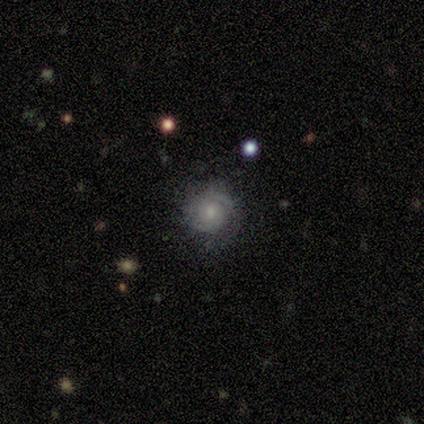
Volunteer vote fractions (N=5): Smooth or featured? featured or disk (60%)
Edge-on disk? no (100%)
Bar? no (67%)
Spiral arms? yes (100%)
Spiral winding? tight (100%)
Spiral arm count? 2 (67%)
Bulge size? moderate (67%)
Merging? none (60%)